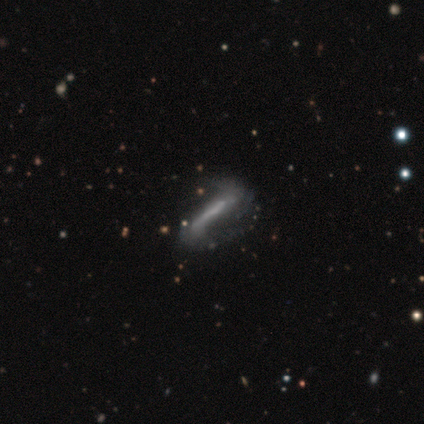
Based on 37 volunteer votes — Smooth or featured?
  - featured or disk: 73% *
  - smooth: 22%
  - star or artifact: 5%
Edge-on disk?
  - no: 70% *
  - yes: 30%
Bar?
  - strong: 53% *
  - weak: 32%
  - no: 16%
Spiral arms?
  - yes: 79% *
  - no: 21%
Spiral winding?
  - loose: 73% *
  - tight: 20%
  - medium: 7%
Spiral arm count?
  - 2: 100% *
  - 1: 0%
  - 3: 0%
  - 4: 0%
  - more than 4: 0%
  - can't tell: 0%
Bulge size?
  - none: 42% *
  - small: 32%
  - moderate: 21%
  - large: 5%
  - dominant: 0%
Merging?
  - none: 46% *
  - minor disturbance: 34%
  - major disturbance: 17%
  - merger: 3%